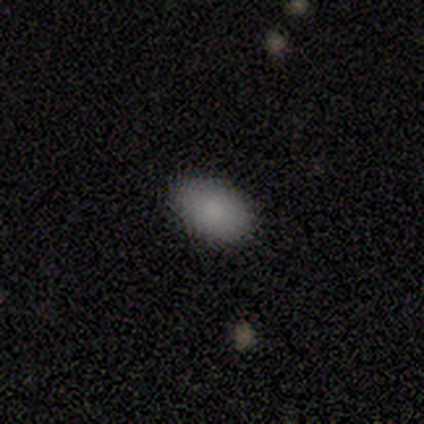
A smooth galaxy with no disk features (80%) that is in between round and cigar-shaped (75%).

Vote fractions:
- Smooth or featured? smooth: 80% / featured or disk: 20% / star or artifact: 0%
- How rounded? in between: 75% / round: 25% / cigar-shaped: 0%
- Merging? none: 80% / major disturbance: 20% / minor disturbance: 0% / merger: 0%